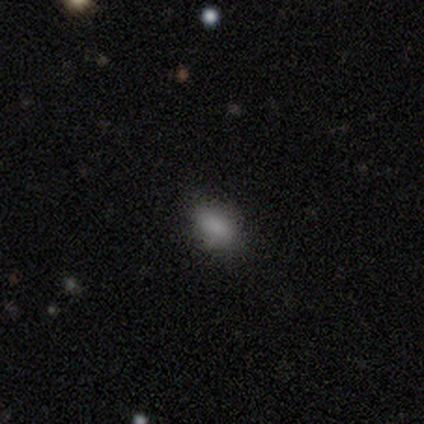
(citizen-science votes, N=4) Q: Smooth or featured?
A: smooth (100%)
Q: How rounded?
A: in between (100%)
Q: Merging?
A: none (75%); runner-up: minor disturbance (25%)